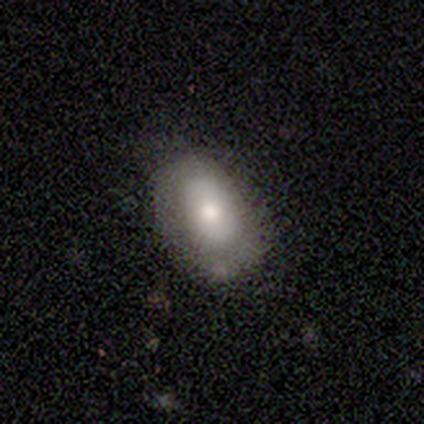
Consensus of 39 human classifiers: Overall: smooth (72%). How rounded: in between (82%). Merging: none (71%).